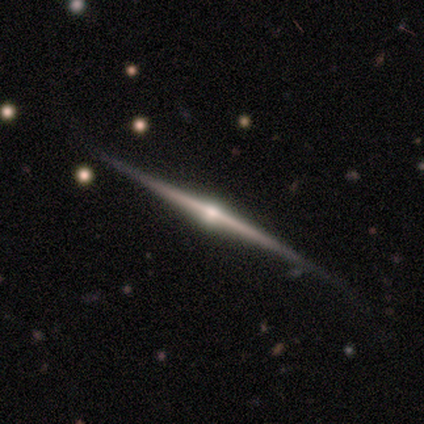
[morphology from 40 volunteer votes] Smooth or featured: featured or disk — 90% (smooth — 8%)
Edge-on disk: yes — 100%
Edge-on bulge: rounded — 94% (none — 6%)
Merging: none — 51% (minor disturbance — 18%)